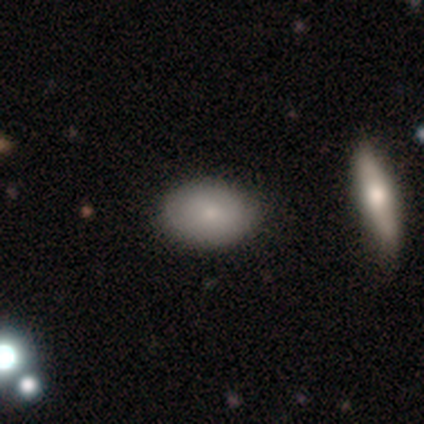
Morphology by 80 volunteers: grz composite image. It shows a smooth galaxy with no disk features (78%) that is in between round and cigar-shaped (89%). Merging: none (47%).